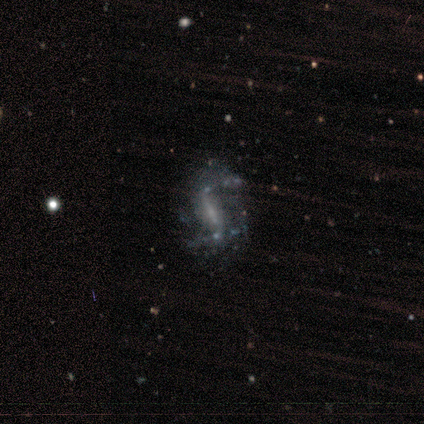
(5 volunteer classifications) Smooth or featured? featured or disk (80%)
Edge-on disk? no (100%)
Bar? weak (50%)
Spiral arms? yes (100%)
Spiral winding? loose (100%)
Spiral arm count? 2 (75%)
Bulge size? small (50%)
Merging? none (80%)